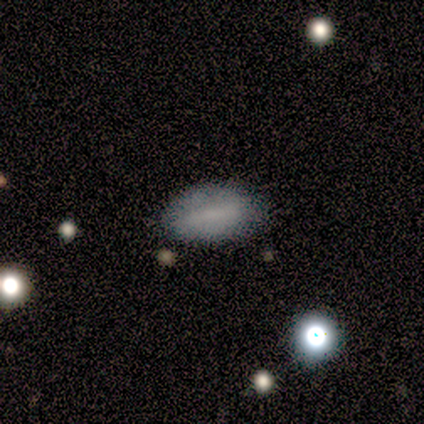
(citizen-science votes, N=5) This is clearly a smooth galaxy (80%). How rounded: likely in between (75%). Merging: clearly none (80%).